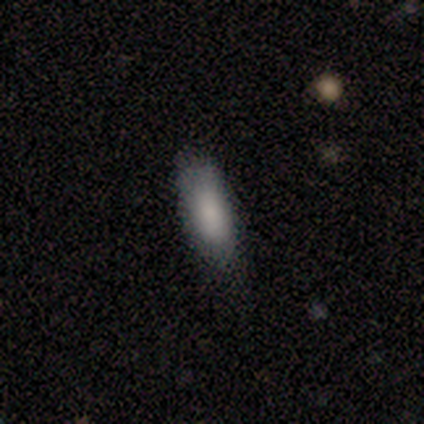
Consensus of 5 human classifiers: smooth_or_featured: smooth (p=1.00)
how_rounded: in between (p=0.80) [alt: cigar-shaped p=0.20]
merging: none (p=0.80) [alt: minor disturbance p=0.20]